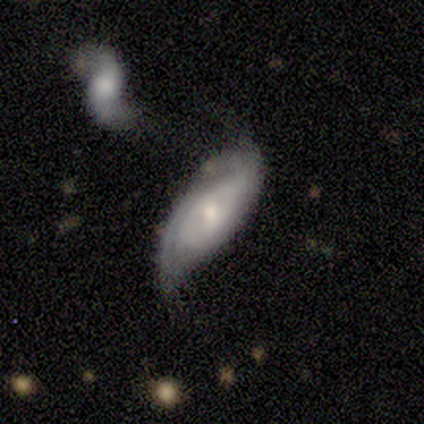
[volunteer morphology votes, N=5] smooth-or-featured: featured or disk: 80% | smooth: 20% | star or artifact: 0%
  disk-edge-on: no: 100% | yes: 0%
    bar: weak: 50% | strong: 25% | no: 25%
    has-spiral-arms: yes: 100% | no: 0%
      spiral-winding: tight: 50% (tied) | medium: 50% (tied) | loose: 0%
      spiral-arm-count: can't tell: 75% | 2: 25% | 1: 0% | 3: 0% | 4: 0% | more than 4: 0%
    bulge-size: moderate: 100% | dominant: 0% | large: 0% | small: 0% | none: 0%
  merging: none: 60% | minor disturbance: 20% | major disturbance: 20% | merger: 0%